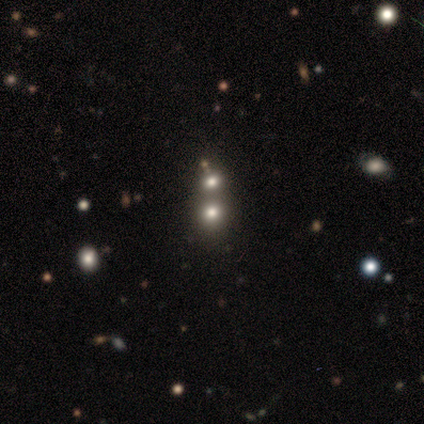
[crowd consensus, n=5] Smooth or featured?
  - star or artifact: 80% *
  - smooth: 20%
  - featured or disk: 0%